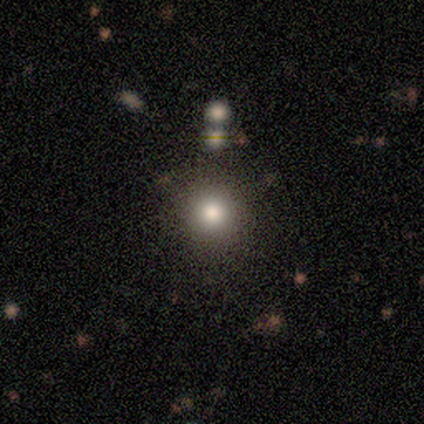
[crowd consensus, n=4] Volunteers were most divided on "merging": none: 67%, minor disturbance: 33%, major disturbance: 0%, merger: 0%. More confident: how rounded — round (100%); smooth or featured — smooth (75%).